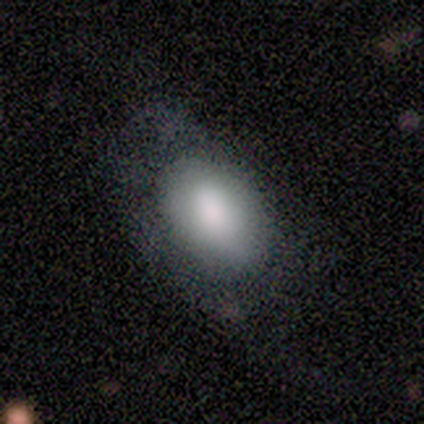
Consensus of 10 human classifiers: Volunteers were most divided on "merging": none: 44%, major disturbance: 33%, minor disturbance: 22%, merger: 0%. More confident: smooth or featured — smooth (90%); how rounded — in between (89%).